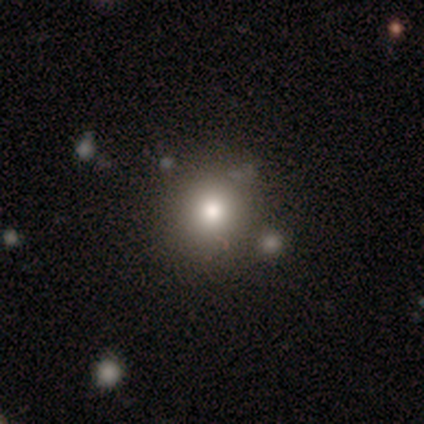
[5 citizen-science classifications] This appears to be a smooth galaxy with no disk features (60%) that is round (100%). Merging: none (100%).